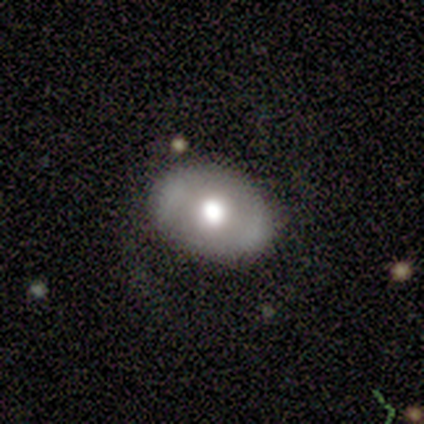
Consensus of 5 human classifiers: Overall: smooth (80%). How rounded: in between (75%). Merging: minor disturbance (60%; none 40%).